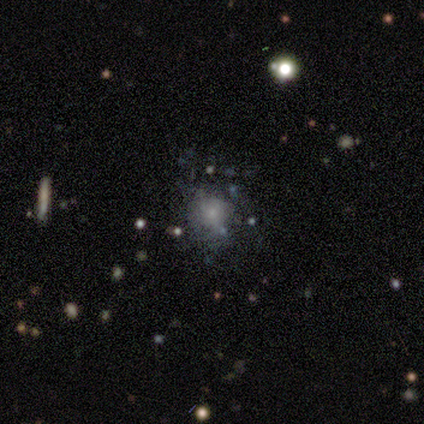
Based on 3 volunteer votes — Smooth or featured?
  - featured or disk: 67% *
  - smooth: 33%
  - star or artifact: 0%
Edge-on disk?
  - no: 100% *
  - yes: 0%
Bar?
  - no: 100% *
  - strong: 0%
  - weak: 0%
Spiral arms?
  - yes: 50% * (tied)
  - no: 50% * (tied)
Spiral winding?
  - medium: 100% *
  - tight: 0%
  - loose: 0%
Spiral arm count?
  - can't tell: 100% *
  - 1: 0%
  - 2: 0%
  - 3: 0%
  - 4: 0%
  - more than 4: 0%
Bulge size?
  - moderate: 50% * (tied)
  - none: 50% * (tied)
  - dominant: 0%
  - large: 0%
  - small: 0%
Merging?
  - minor disturbance: 100% *
  - none: 0%
  - major disturbance: 0%
  - merger: 0%